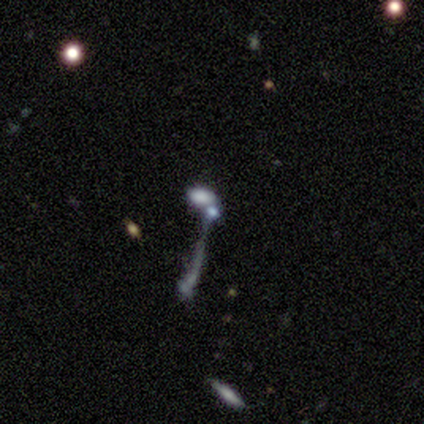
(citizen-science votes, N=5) Morphology: type=smooth (80%); roundness=in between (100%); merging=none (50%, tied with merger).